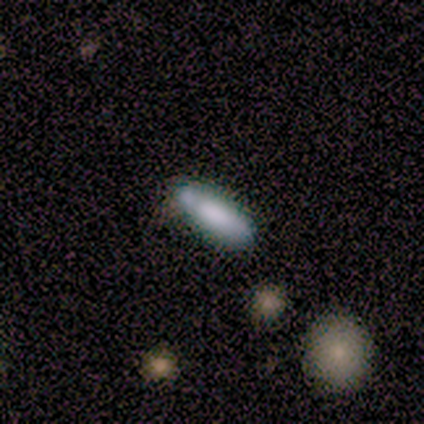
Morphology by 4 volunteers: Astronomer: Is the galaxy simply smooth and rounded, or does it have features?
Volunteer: smooth — 50%.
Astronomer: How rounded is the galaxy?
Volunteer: cigar-shaped — 100%.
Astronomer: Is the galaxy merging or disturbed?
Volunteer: minor disturbance — 67%.